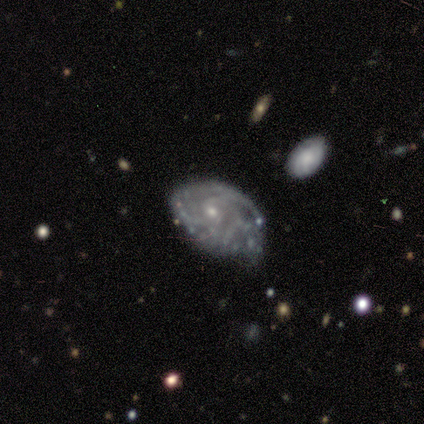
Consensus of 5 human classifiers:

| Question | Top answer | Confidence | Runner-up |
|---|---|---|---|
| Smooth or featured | featured or disk | 80% | star or artifact (20%) |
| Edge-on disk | no | 100% | — |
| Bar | no | 75% | weak (25%) |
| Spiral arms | yes | 100% | — |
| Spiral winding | tight | 75% | loose (25%) |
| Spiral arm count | can't tell | 50% | 2 (25%) |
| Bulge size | small | 100% | — |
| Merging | major disturbance | 75% | none (25%) |